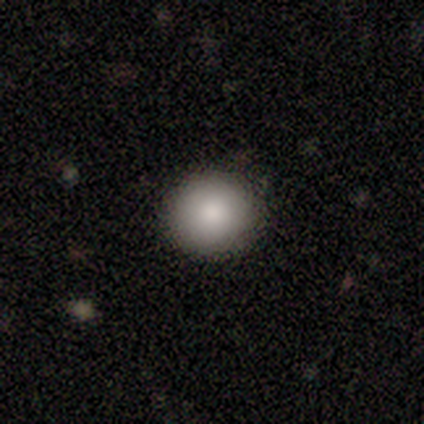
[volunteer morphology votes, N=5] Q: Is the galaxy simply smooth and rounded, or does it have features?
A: smooth — 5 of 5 (100%).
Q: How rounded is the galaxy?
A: round — 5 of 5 (100%).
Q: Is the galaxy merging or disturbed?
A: none — 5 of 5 (100%).